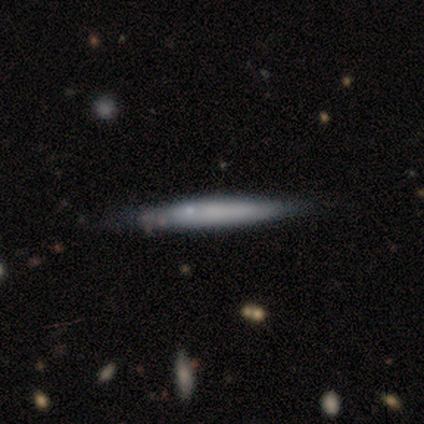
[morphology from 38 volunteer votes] A smooth galaxy with no disk features (61%) that is cigar-shaped (100%). Merging: none (67%).